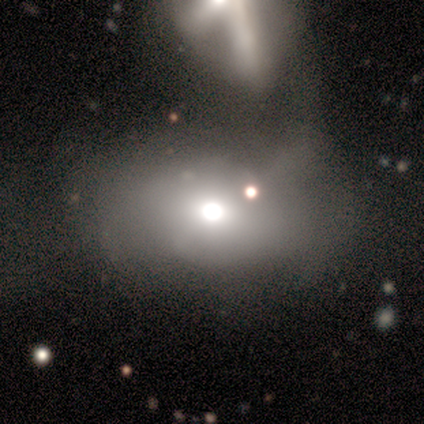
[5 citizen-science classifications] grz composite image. It shows a smooth galaxy with no disk features (40%, tied with star or artifact) that is in between round and cigar-shaped (100%). Merging: minor disturbance (33%, tied with major disturbance and merger).